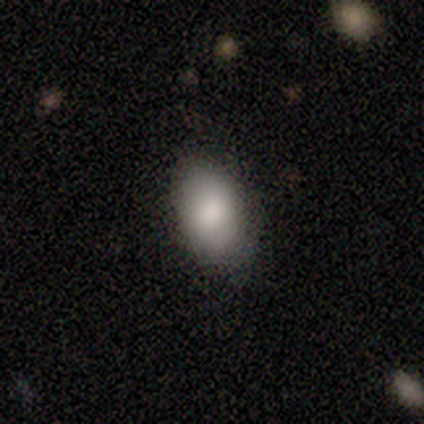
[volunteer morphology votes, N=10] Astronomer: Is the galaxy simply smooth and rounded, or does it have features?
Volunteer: smooth — 90%.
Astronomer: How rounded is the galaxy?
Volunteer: in between — 89%.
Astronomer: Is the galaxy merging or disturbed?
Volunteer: none — 78%.